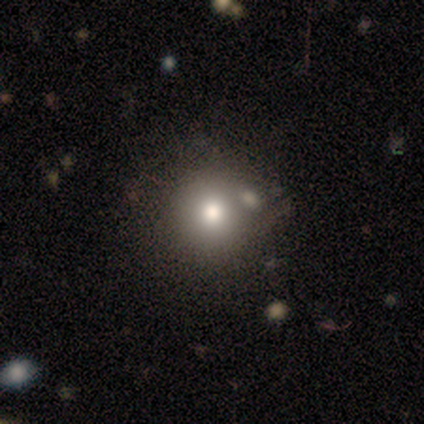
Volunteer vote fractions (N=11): Smooth or featured? smooth (73%)
How rounded? round (75%)
Merging? none (88%)